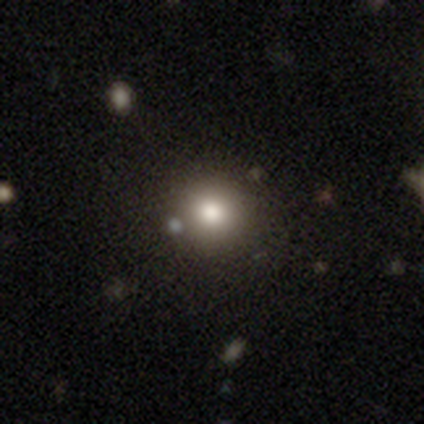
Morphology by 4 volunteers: smooth_or_featured: smooth (p=1.00)
how_rounded: round (p=1.00)
merging: none (p=1.00)